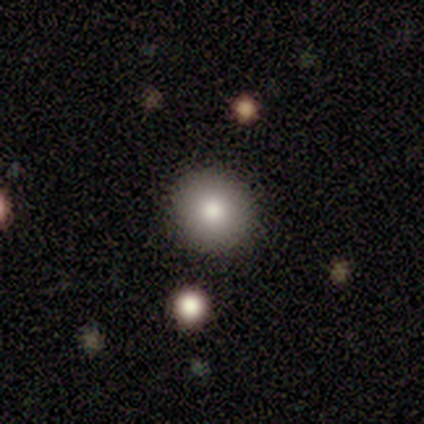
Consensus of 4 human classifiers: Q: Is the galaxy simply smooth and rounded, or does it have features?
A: smooth — 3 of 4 (75%).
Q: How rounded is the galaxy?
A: round — 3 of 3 (100%).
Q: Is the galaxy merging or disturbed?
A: none — 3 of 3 (100%).